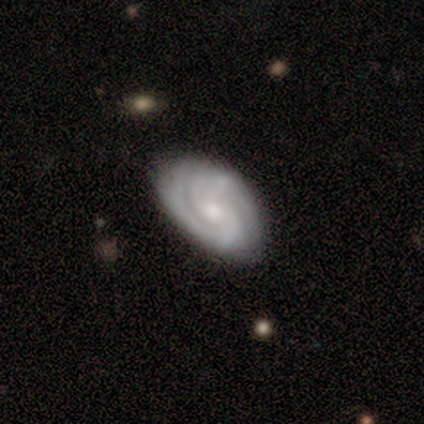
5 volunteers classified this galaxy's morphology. This is clearly a featured or disk galaxy (100%). It is clearly not viewed edge-on (100%). Bar: likely weak (60%). Spiral arm pattern: clearly yes (100%). Spiral arm count: likely 2 (60%). Spiral winding: likely tight (60%). Central bulge: likely moderate (60%). Merging: clearly none (100%).